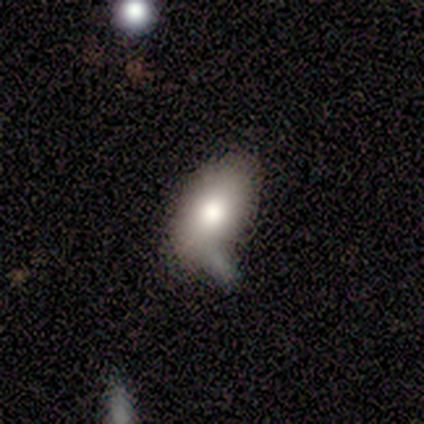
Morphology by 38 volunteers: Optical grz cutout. It shows a smooth galaxy with no disk features (79%) that is in between round and cigar-shaped (93%). Merging: none (27%).